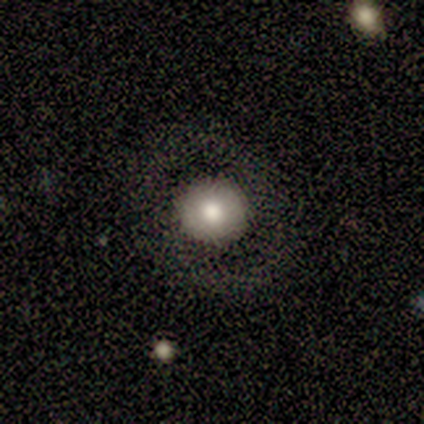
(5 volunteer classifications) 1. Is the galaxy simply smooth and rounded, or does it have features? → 60% smooth, 20% featured or disk, 20% star or artifact.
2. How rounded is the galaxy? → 67% round, 33% in between, 0% cigar-shaped.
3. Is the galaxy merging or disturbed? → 100% none, 0% minor disturbance, 0% major disturbance, 0% merger.